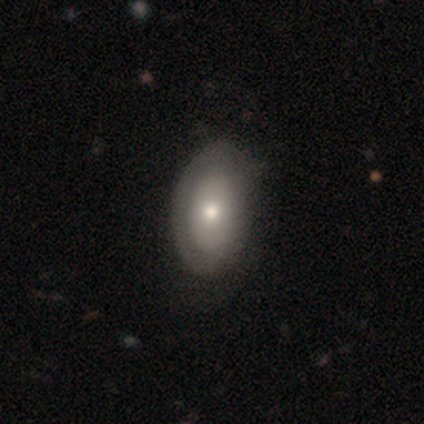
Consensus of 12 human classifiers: Overall: smooth (67%; featured or disk 33%). How rounded: in between (88%). Merging: none (42%; minor disturbance 33%).